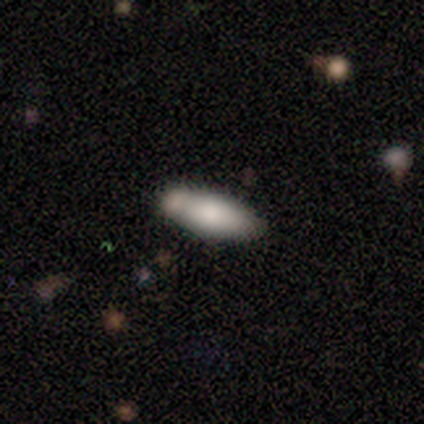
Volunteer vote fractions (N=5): A smooth galaxy with no disk features (80%) that is in between round and cigar-shaped (75%). Merging: none (50%).